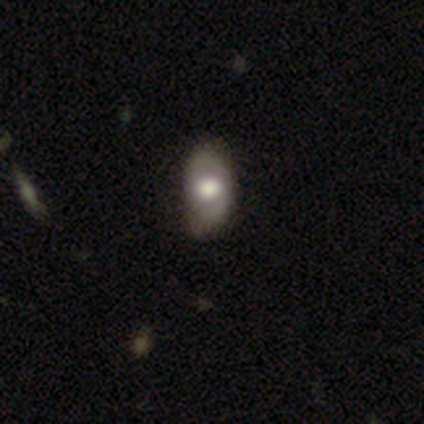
Overall: smooth (80%). How rounded: in between (100%). Merging: none (60%; minor disturbance 40%).